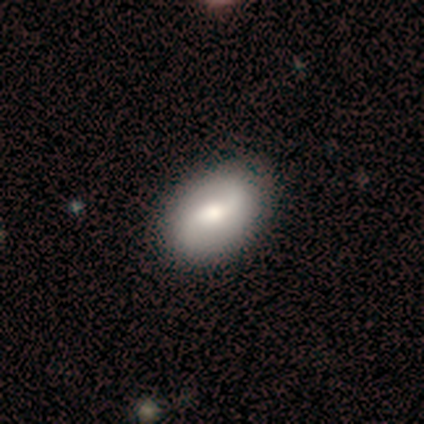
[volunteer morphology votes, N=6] smooth-or-featured: smooth: 50% | featured or disk: 33% | star or artifact: 17%
  how-rounded: in between: 100% | round: 0% | cigar-shaped: 0%
  merging: none: 80% | minor disturbance: 20% | major disturbance: 0% | merger: 0%